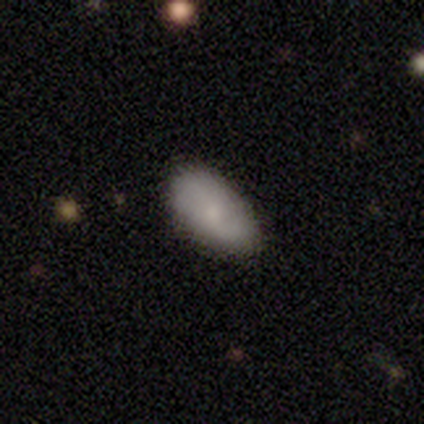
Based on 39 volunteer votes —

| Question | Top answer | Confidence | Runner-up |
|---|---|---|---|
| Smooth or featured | smooth | 67% | featured or disk (26%) |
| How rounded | in between | 96% | round (4%) |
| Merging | none | 64% | minor disturbance (3%) |